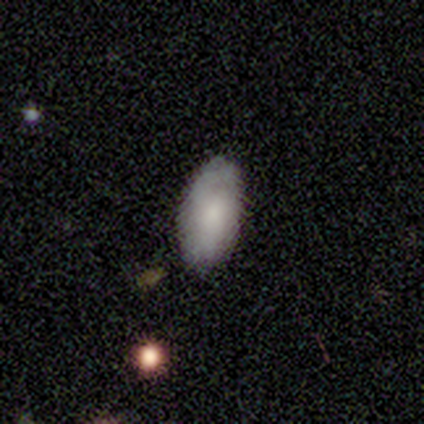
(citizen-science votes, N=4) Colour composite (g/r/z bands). It shows a smooth galaxy with no disk features (100%) that is in between round and cigar-shaped (100%). Merging: none (100%).